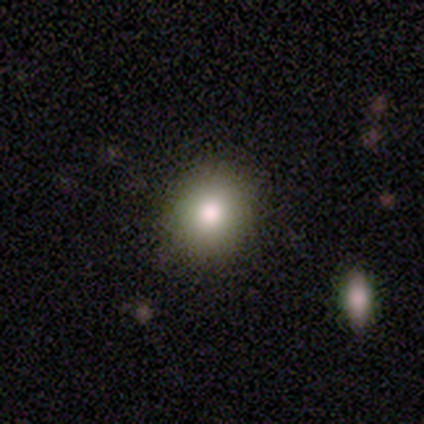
Smooth or featured? smooth (80%)
How rounded? round (75%)
Merging? none (78%)